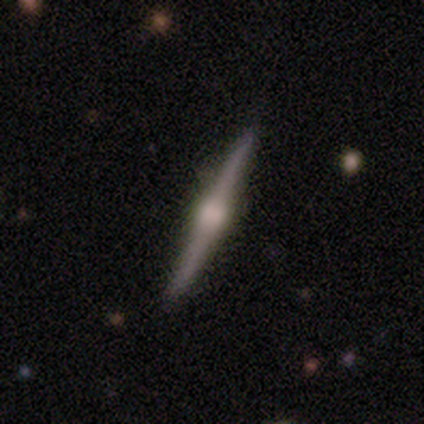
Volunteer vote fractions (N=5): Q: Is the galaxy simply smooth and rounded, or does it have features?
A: featured or disk — 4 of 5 (80%).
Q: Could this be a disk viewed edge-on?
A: yes — 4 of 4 (100%).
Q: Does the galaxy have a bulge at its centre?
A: rounded — 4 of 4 (100%).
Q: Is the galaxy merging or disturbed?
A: none — 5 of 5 (100%).